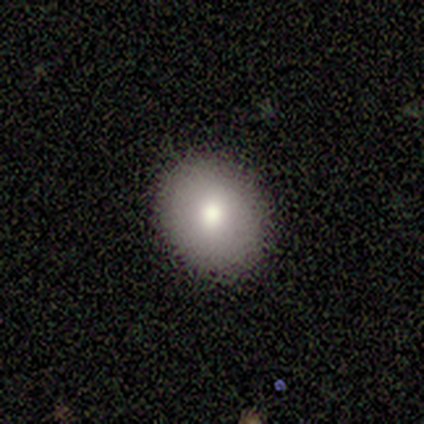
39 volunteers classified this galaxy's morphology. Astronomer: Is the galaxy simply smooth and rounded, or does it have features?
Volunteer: smooth — 87%.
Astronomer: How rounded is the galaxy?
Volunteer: round — 62% (runner-up: in between, 38%).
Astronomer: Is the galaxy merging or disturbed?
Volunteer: none — 97%.